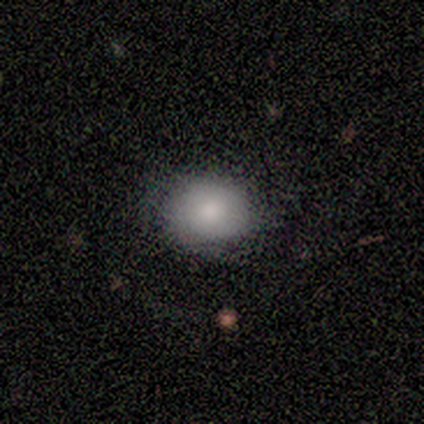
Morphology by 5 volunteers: This appears to be a smooth galaxy with no disk features (60%) that is in between round and cigar-shaped (67%). Merging: none (80%).